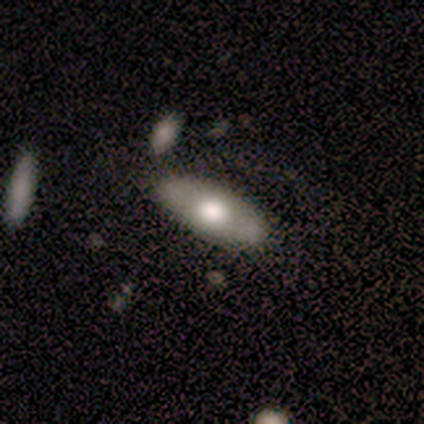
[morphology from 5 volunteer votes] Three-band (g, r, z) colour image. It shows a smooth galaxy with no disk features (80%) that is in between round and cigar-shaped (75%). Merging: none (100%).